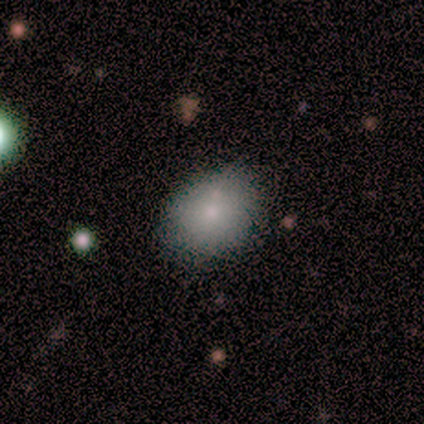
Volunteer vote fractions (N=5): A smooth galaxy with no disk features (80%) that is in between round and cigar-shaped (75%). Merging: none (75%).